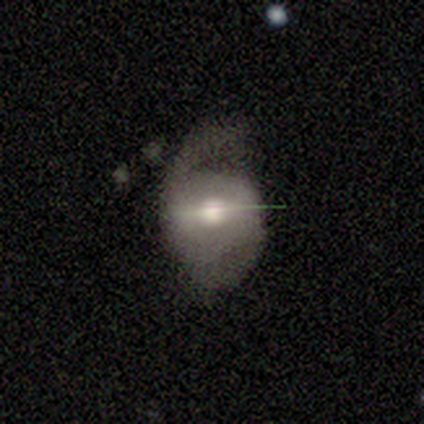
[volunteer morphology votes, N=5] Volunteers were most divided on "bar" (3-way tie): strong: 33%, weak: 33%, no: 33%; "merging" (2-way tie): minor disturbance: 40%, major disturbance: 40%, none: 20%, merger: 0%. More confident: edge-on disk — no (100%); spiral winding — medium (100%); spiral arm count — 2 (100%); spiral arms — yes (67%); bulge size — moderate (67%); smooth or featured — featured or disk (60%).